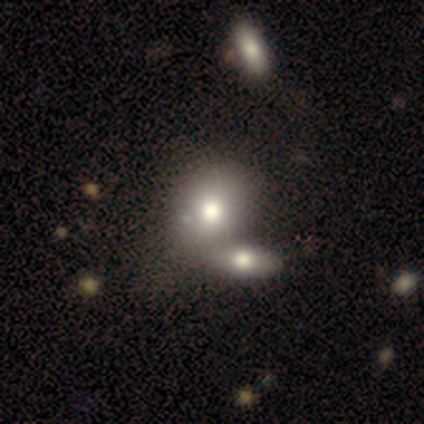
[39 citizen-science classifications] Smooth or featured: smooth — 67% (featured or disk — 26%)
How rounded: in between — 54% (round — 46%)
Merging: merger — 50% (none — 22%)